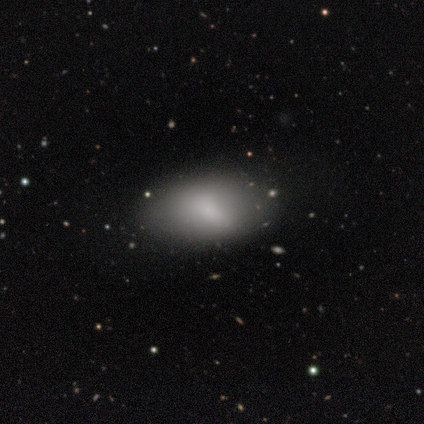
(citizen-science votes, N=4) This is clearly a smooth galaxy (100%). How rounded: likely in between (75%). Merging: clearly none (100%).